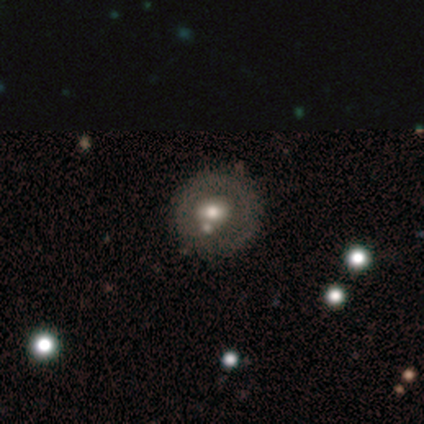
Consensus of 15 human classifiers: smooth 47% (tied), featured or disk 47% (tied), star or artifact 7%. Down the decision tree: how rounded — round (86%); merging — none (71%).